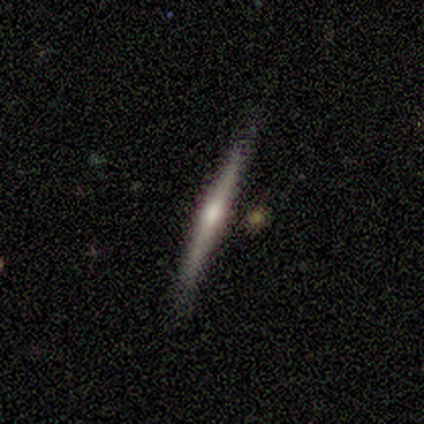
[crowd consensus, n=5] A featured or disk galaxy (80%) viewed edge-on (100%) with a rounded central bulge (75%). Merging: none (60%).